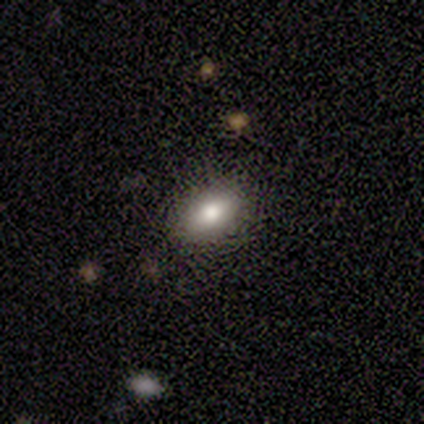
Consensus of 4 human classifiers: Smooth or featured? smooth (100%)
How rounded? in between (75%)
Merging? none (100%)